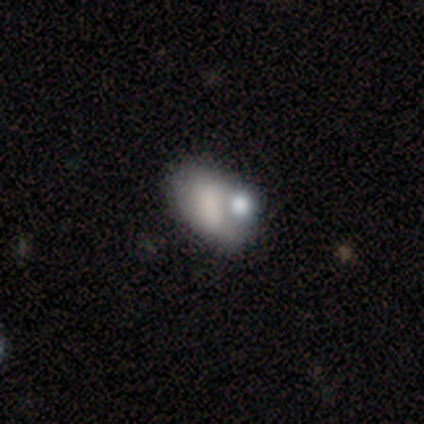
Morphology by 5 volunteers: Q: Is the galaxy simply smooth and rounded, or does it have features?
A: smooth — 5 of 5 (100%).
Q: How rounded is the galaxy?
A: in between — 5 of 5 (100%).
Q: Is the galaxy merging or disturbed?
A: none — 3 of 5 (60%).